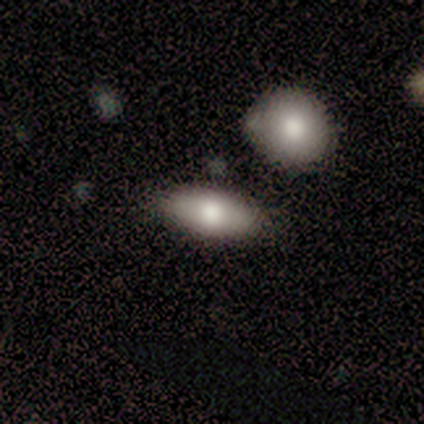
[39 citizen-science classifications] Smooth or featured: smooth — 82% (featured or disk — 13%)
How rounded: in between — 94% (round — 6%)
Merging: none — 78% (minor disturbance — 11%)